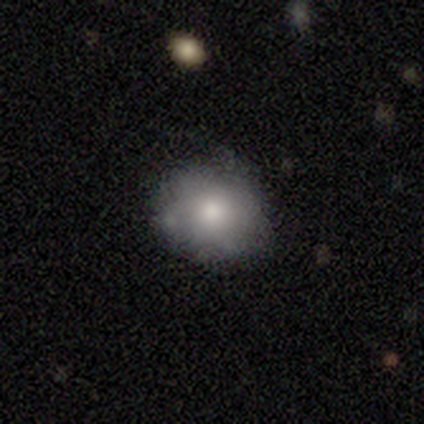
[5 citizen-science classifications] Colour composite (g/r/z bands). It shows a smooth galaxy with no disk features (80%) that is round (50%, tied with in between). Merging: none (100%).